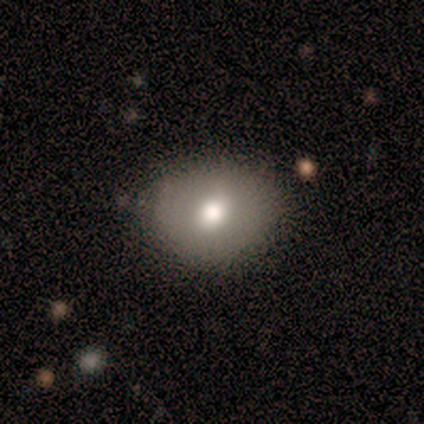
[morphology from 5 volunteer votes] This appears to be a smooth galaxy with no disk features (80%) that is round (50%, tied with in between). Merging: none (60%).